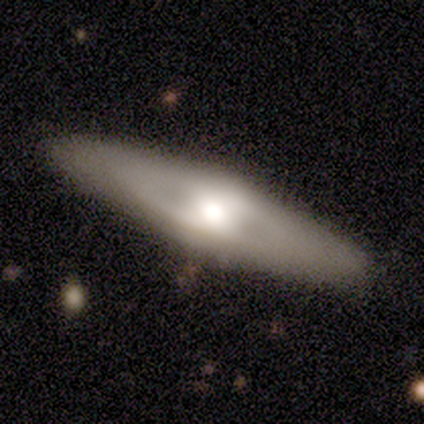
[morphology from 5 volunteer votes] featured or disk 60%, smooth 40%, star or artifact 0%. Down the decision tree: edge-on disk — no (67%); bar — no (100%); spiral arms — no (100%); bulge size — large (50%, tied with moderate); merging — none (100%).